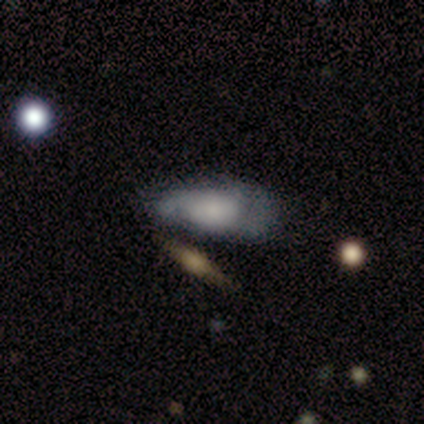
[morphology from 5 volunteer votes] Q: Smooth or featured?
A: smooth (80%); runner-up: featured or disk (20%)
Q: How rounded?
A: in between (100%)
Q: Merging?
A: none (40%); tied with: minor disturbance (40%)